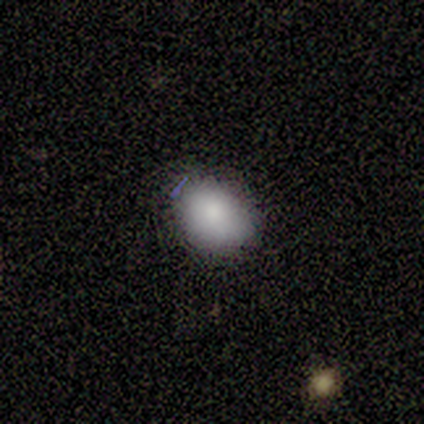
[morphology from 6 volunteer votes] Overall: smooth (100%). How rounded: in between (67%; round 33%). Merging: none (83%).